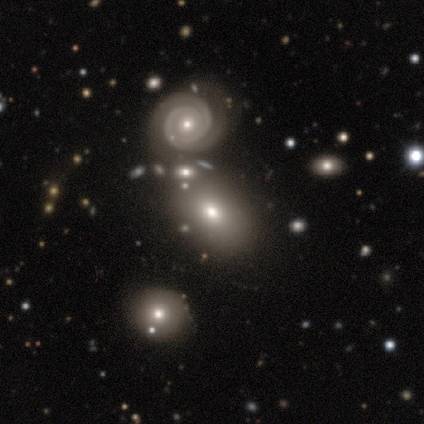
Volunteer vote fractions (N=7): This appears to be a smooth galaxy with no disk features (57%) that is in between round and cigar-shaped (75%). Merging: none (71%).